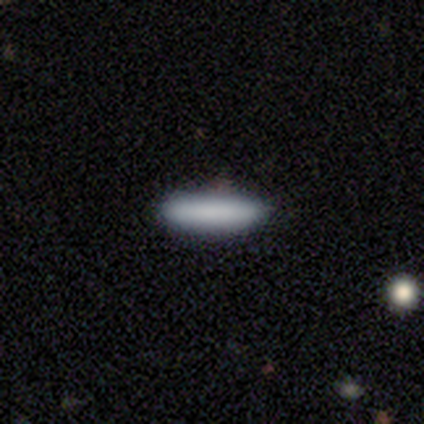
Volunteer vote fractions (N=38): Morphology: type=smooth (89%); roundness=cigar-shaped (82%); merging=none (94%).